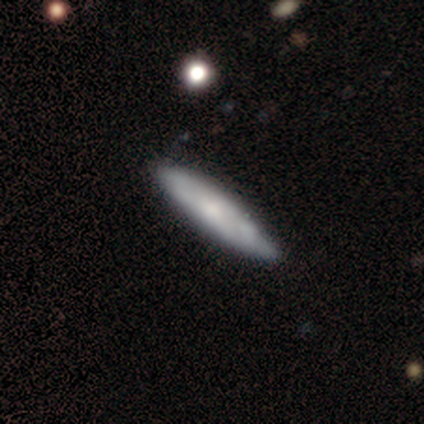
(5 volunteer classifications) Q: Smooth or featured?
A: featured or disk (60%); runner-up: smooth (20%)
Q: Edge-on disk?
A: no (67%); runner-up: yes (33%)
Q: Bar?
A: no (100%)
Q: Spiral arms?
A: no (100%)
Q: Bulge size?
A: moderate (50%); tied with: small (50%)
Q: Merging?
A: none (75%); runner-up: minor disturbance (25%)